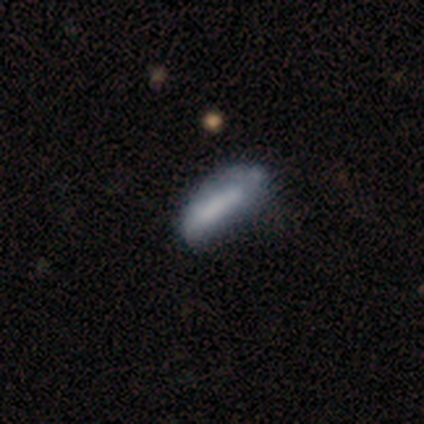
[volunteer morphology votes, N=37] type=smooth (73%); roundness=in between (70%); merging=none (41%).